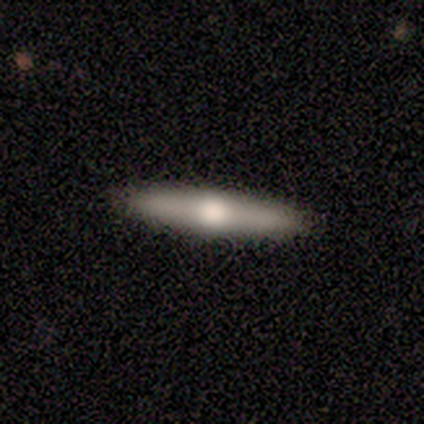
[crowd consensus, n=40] Smooth or featured?
  - featured or disk: 65% *
  - smooth: 35%
  - star or artifact: 0%
Edge-on disk?
  - yes: 96% *
  - no: 4%
Edge-on bulge?
  - rounded: 96% *
  - boxy: 4%
  - none: 0%
Merging?
  - none: 100% *
  - minor disturbance: 0%
  - major disturbance: 0%
  - merger: 0%